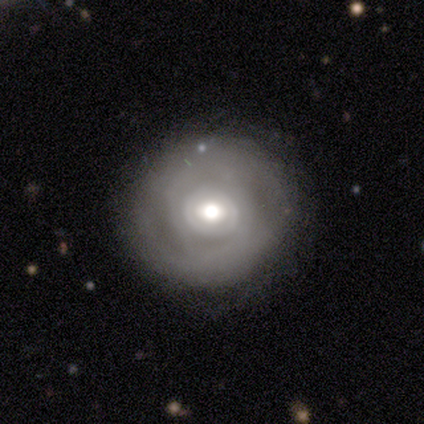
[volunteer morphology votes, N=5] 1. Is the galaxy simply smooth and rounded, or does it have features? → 100% featured or disk, 0% smooth, 0% star or artifact.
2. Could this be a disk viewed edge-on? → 100% no, 0% yes.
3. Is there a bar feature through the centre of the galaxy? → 60% no, 40% weak, 0% strong.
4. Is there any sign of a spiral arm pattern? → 60% no, 40% yes.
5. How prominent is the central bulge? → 100% moderate, 0% dominant, 0% large, 0% small, 0% none.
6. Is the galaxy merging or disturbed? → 80% none, 20% minor disturbance, 0% major disturbance, 0% merger.